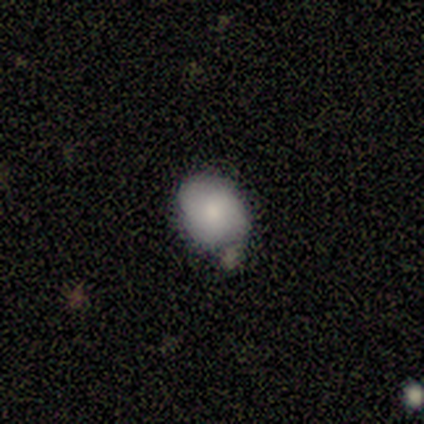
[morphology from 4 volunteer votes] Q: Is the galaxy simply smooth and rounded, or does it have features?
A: smooth — 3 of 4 (75%).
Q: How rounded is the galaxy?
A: in between — 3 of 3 (100%).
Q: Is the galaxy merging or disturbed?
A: none — 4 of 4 (100%).